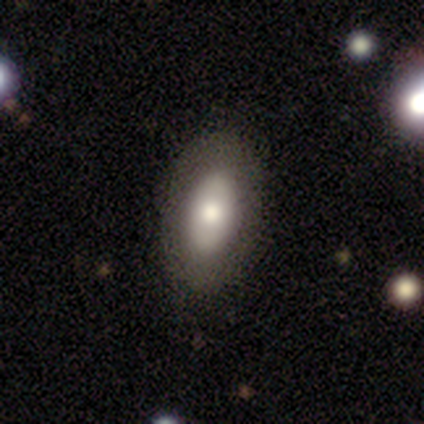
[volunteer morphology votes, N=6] This appears to be a smooth galaxy with no disk features (83%) that is in between round and cigar-shaped (80%). Merging: none (67%).